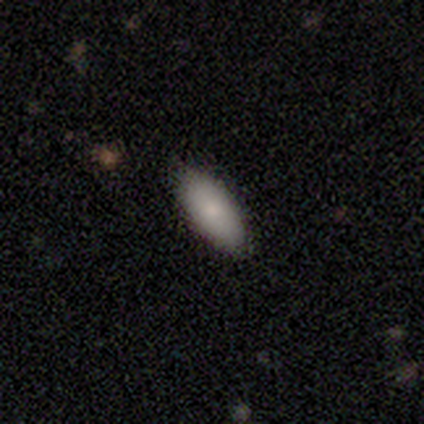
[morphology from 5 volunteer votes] Smooth or featured?
  - smooth: 100% *
  - featured or disk: 0%
  - star or artifact: 0%
How rounded?
  - in between: 80% *
  - cigar-shaped: 20%
  - round: 0%
Merging?
  - none: 80% *
  - minor disturbance: 20%
  - major disturbance: 0%
  - merger: 0%